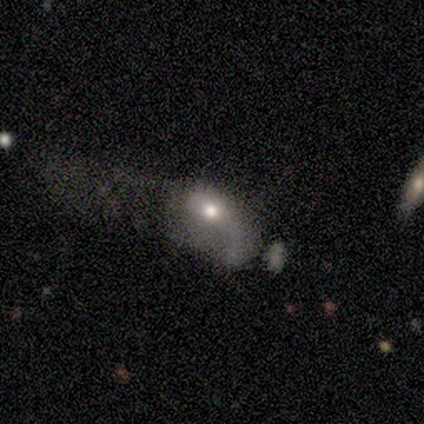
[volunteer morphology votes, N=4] Smooth or featured? smooth (50%)
How rounded? in between (100%)
Merging? major disturbance (100%)